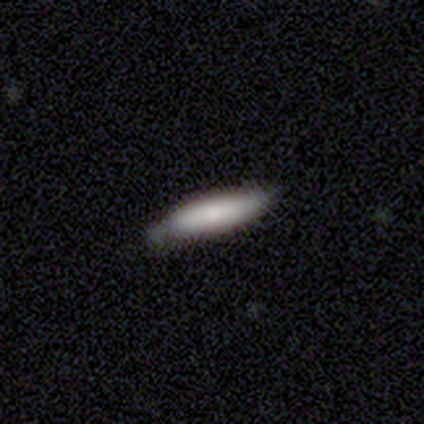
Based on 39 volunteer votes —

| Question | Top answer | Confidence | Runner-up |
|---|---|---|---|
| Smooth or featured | smooth | 90% | featured or disk (5%) |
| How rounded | cigar-shaped | 89% | in between (11%) |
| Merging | none | 78% | minor disturbance (16%) |